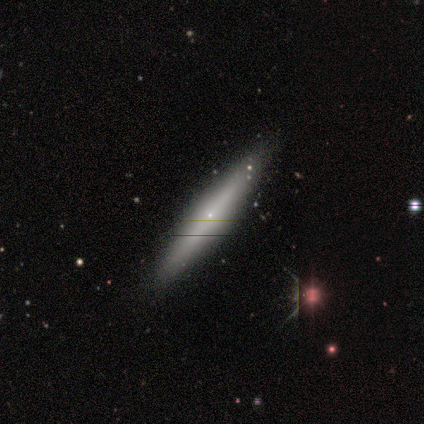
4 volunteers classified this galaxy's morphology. This is possibly a featured or disk galaxy (50%). It is clearly viewed edge-on (100%). Edge-on bulge: clearly rounded (100%). Merging: likely none (67%).